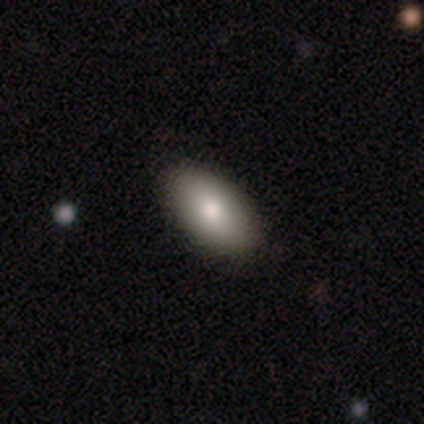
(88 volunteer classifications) A smooth galaxy with no disk features (78%) that is in between round and cigar-shaped (97%). Merging: none (86%).